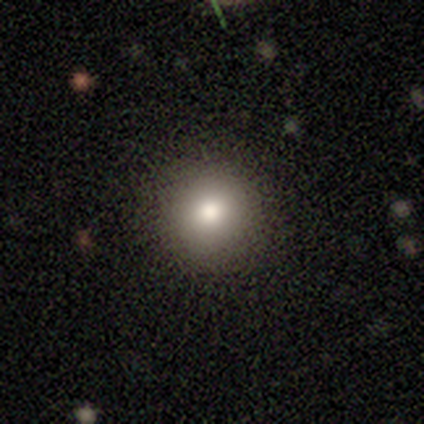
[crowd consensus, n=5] smooth 40% (tied), star or artifact 40% (tied), featured or disk 20%. Down the decision tree: how rounded — round (100%); merging — none (67%).